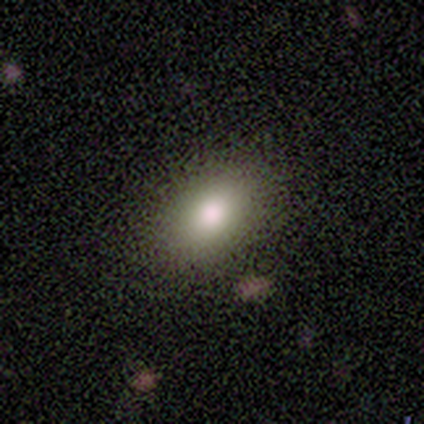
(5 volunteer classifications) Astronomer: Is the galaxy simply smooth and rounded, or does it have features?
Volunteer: smooth — 80%.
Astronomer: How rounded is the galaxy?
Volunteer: in between — 100%.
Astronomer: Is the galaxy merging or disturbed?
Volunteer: none — 100%.